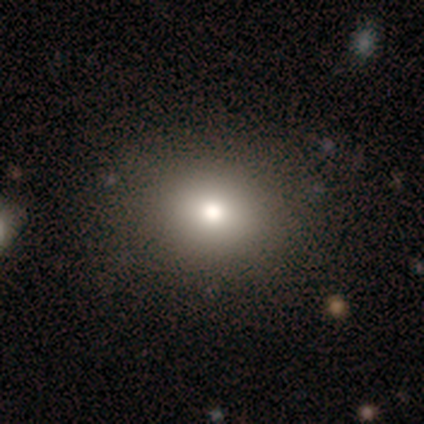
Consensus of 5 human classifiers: smooth_or_featured: smooth (p=0.60) [alt: featured or disk p=0.20]
how_rounded: round (p=1.00)
merging: none (p=1.00)